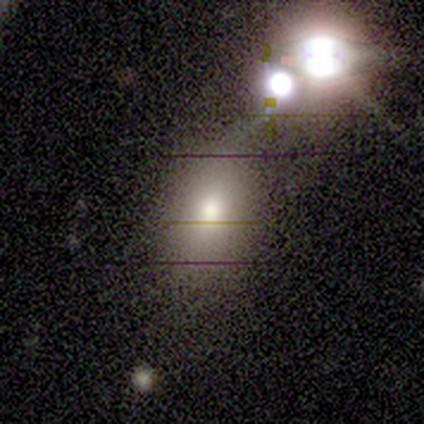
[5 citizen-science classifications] A star or artifact, not a galaxy (60%).